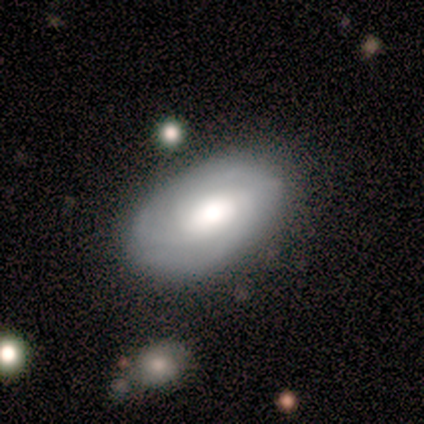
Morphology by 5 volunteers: This appears to be a featured or disk galaxy (80%) with no bar (75%), 3 (50%, tied with can't tell) tight (50%, tied with medium) spiral arms (100%) and a moderate central bulge (75%). Merging: none (100%).